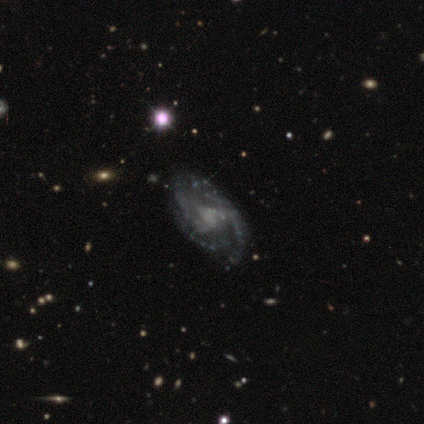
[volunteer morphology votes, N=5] type=smooth (60%); roundness=in between (67%); merging=none (40%).